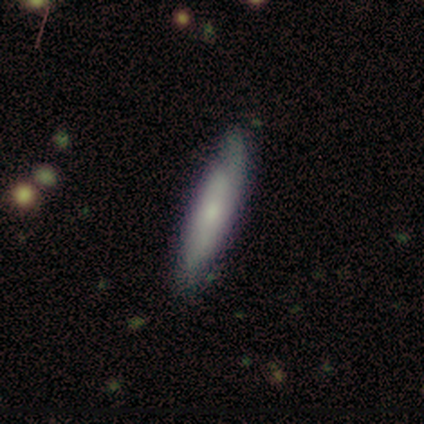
Smooth or featured? smooth (67%)
How rounded? cigar-shaped (100%)
Merging? none (67%)